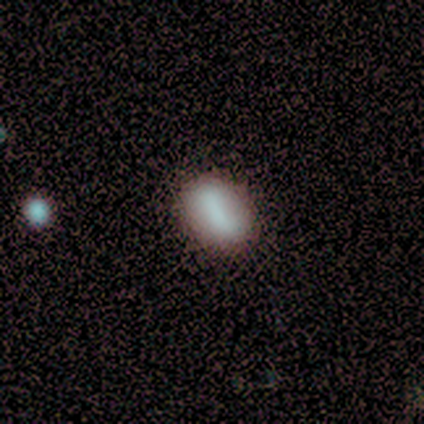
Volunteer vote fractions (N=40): Volunteers were most divided on "smooth or featured": smooth: 65%, featured or disk: 28%, star or artifact: 8%. More confident: merging — none (84%); how rounded — in between (77%).